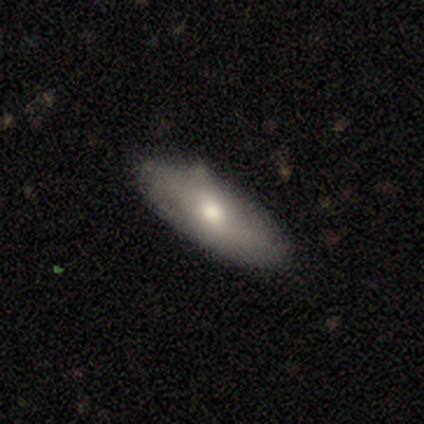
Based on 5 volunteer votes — Smooth or featured: featured or disk — 60% (smooth — 40%)
Edge-on disk: no — 100%
Bar: no — 100%
Spiral arms: no — 67% (yes — 33%)
Bulge size: moderate — 33% (tied with small — 33%; none — 33%)
Merging: none — 80% (minor disturbance — 20%)